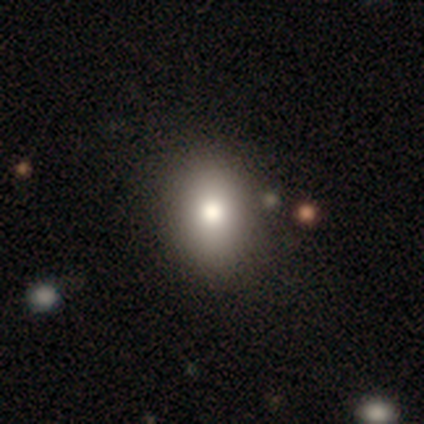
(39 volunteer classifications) This is clearly a smooth galaxy (87%). How rounded: likely in between (65%). Merging: likely none (65%).